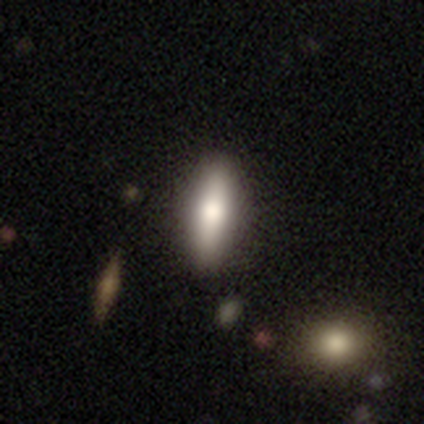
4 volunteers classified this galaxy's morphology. Smooth or featured?
  - smooth: 100% *
  - featured or disk: 0%
  - star or artifact: 0%
How rounded?
  - in between: 50% * (tied)
  - cigar-shaped: 50% * (tied)
  - round: 0%
Merging?
  - none: 50% * (tied)
  - minor disturbance: 50% * (tied)
  - major disturbance: 0%
  - merger: 0%